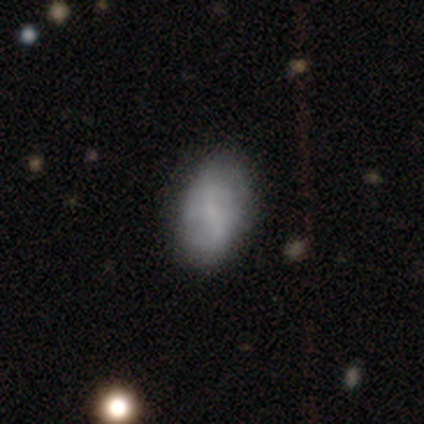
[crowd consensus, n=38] Overall: featured or disk (55%; smooth 39%). Edge-on disk: no (95%). Bar: weak (45%; strong 30%). Spiral arms: yes (65%; no 35%). Spiral arm count: 2 (38%, tied with can't tell). Spiral winding: medium (46%; loose 31%). Bulge size: none (50%; small 45%). Merging: none (50%; minor disturbance 25%).